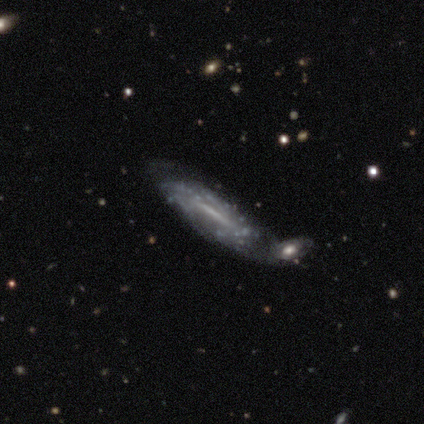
Smooth or featured? 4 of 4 (100%) said featured or disk. Edge-on disk? 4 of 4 (100%) said no. Bar? 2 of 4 (50%) said no. Spiral arms? 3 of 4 (75%) said no. Bulge size? 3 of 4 (75%) said small. Merging? 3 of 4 (75%) said merger.